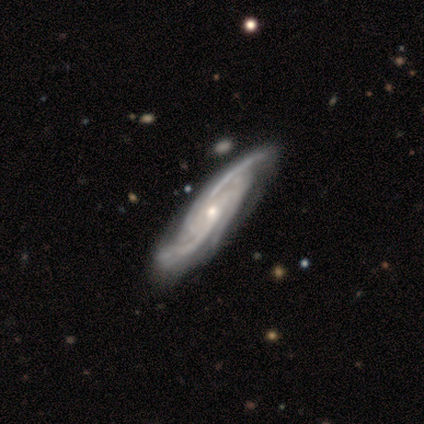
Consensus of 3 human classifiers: smooth_or_featured: featured or disk (p=1.00)
disk_edge_on: no (p=0.67) [alt: yes p=0.33]
bar: no (p=1.00)
has_spiral_arms: yes (p=1.00)
spiral_winding: medium (p=0.50) [tied with: loose p=0.50]
spiral_arm_count: 3 (p=0.50) [tied with: 4 p=0.50]
bulge_size: moderate (p=0.50) [tied with: small p=0.50]
merging: none (p=0.67) [alt: major disturbance p=0.33]